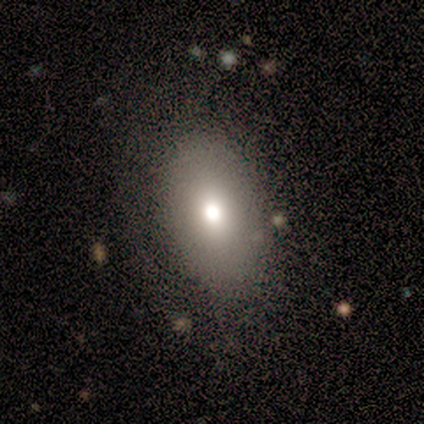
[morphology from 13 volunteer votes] A smooth galaxy with no disk features (54%) that is in between round and cigar-shaped (100%). Merging: none (83%).